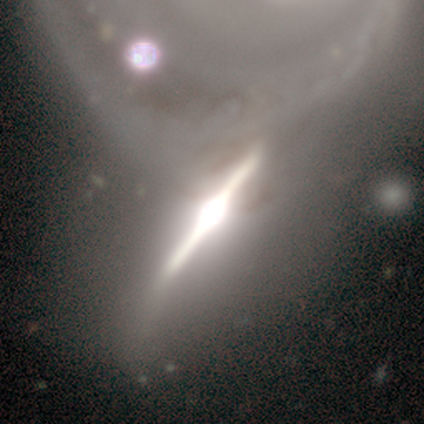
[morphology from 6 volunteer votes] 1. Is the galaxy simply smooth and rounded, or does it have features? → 67% featured or disk, 33% star or artifact, 0% smooth.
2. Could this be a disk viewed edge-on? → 100% yes, 0% no.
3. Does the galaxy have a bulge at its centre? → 75% rounded, 25% boxy, 0% none.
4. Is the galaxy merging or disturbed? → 50% none (tied), 50% minor disturbance (tied), 0% major disturbance, 0% merger.